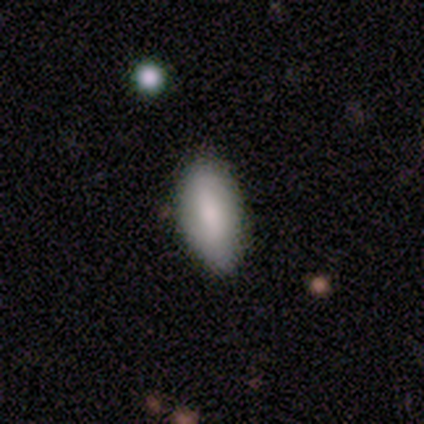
smooth-or-featured: smooth: 80% | featured or disk: 20% | star or artifact: 0%
  how-rounded: in between: 100% | round: 0% | cigar-shaped: 0%
  merging: none: 100% | minor disturbance: 0% | major disturbance: 0% | merger: 0%